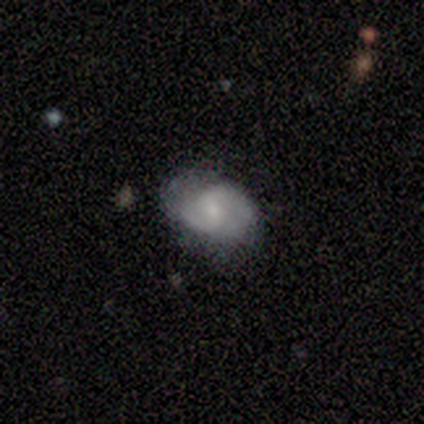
This appears to be a featured or disk galaxy (60%) with a weak bar (50%, tied with no), 2 (100%) loose (100%) spiral arms (50%, tied with no) and a moderate central bulge (50%, tied with small). Merging: none (60%).